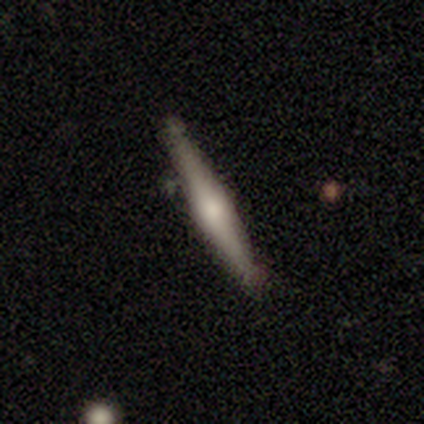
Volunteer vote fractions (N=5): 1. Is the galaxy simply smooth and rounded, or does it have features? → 80% featured or disk, 20% smooth, 0% star or artifact.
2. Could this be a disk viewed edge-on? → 100% yes, 0% no.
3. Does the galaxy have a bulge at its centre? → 100% rounded, 0% boxy, 0% none.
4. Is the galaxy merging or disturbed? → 80% none, 20% minor disturbance, 0% major disturbance, 0% merger.